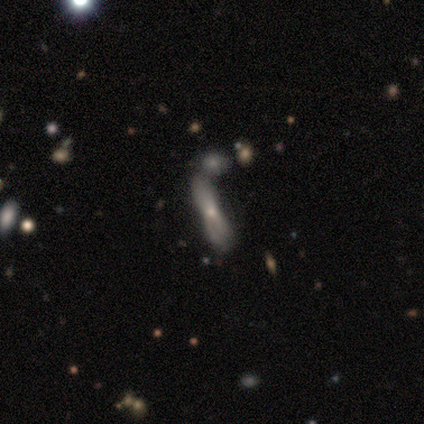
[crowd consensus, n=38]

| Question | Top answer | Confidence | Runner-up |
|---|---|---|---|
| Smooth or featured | smooth | 47% | featured or disk (45%) |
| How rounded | cigar-shaped | 72% | in between (28%) |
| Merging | merger | 51% | — |